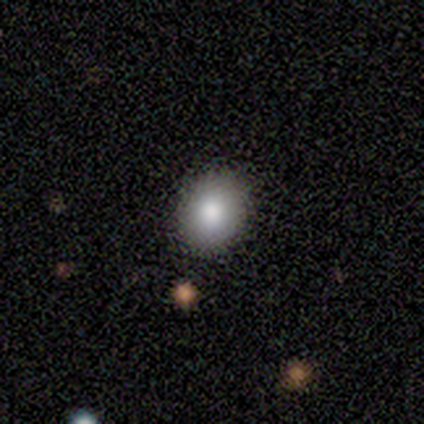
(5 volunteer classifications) A smooth galaxy with no disk features (80%) that is round (50%, tied with in between). Merging: none (100%).